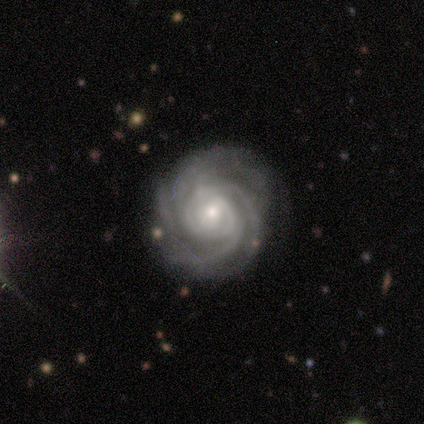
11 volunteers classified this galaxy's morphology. type=featured or disk (100%); edge-on=no (100%); bar=no (55%); spiral arms=yes (100%); winding=tight (100%); arm count=3 (36%, tied with 4); bulge=small (73%); merging=none (55%).